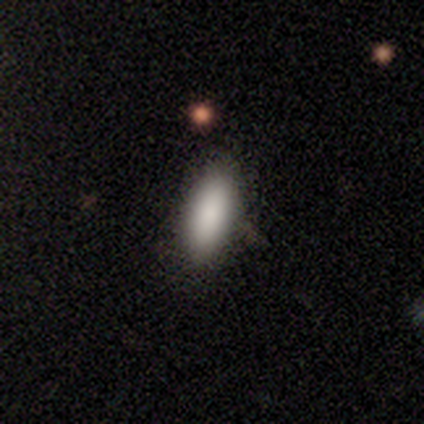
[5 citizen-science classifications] smooth_or_featured: smooth (p=1.00)
how_rounded: in between (p=0.80) [alt: cigar-shaped p=0.20]
merging: none (p=0.80) [alt: major disturbance p=0.20]